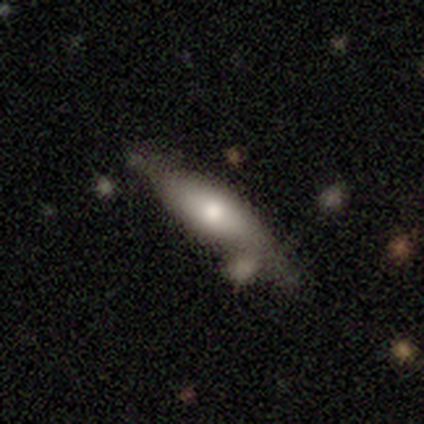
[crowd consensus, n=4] Smooth or featured: smooth — 50% (tied with featured or disk — 50%)
How rounded: cigar-shaped — 100%
Merging: none — 50% (minor disturbance — 25%)